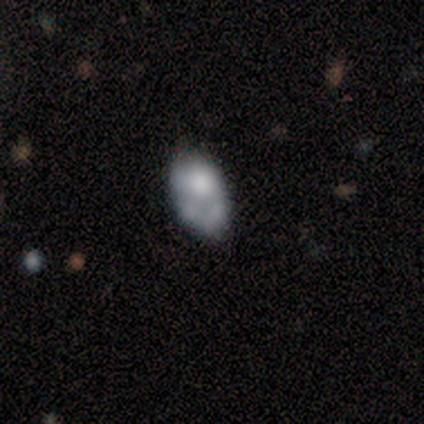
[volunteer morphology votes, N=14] A smooth galaxy with no disk features (43%) that is in between round and cigar-shaped (100%).

Vote fractions:
- Smooth or featured? smooth: 43% / featured or disk: 36% / star or artifact: 21%
- How rounded? in between: 100% / round: 0% / cigar-shaped: 0%
- Merging? minor disturbance: 36% / none: 27% / major disturbance: 27% / merger: 9%